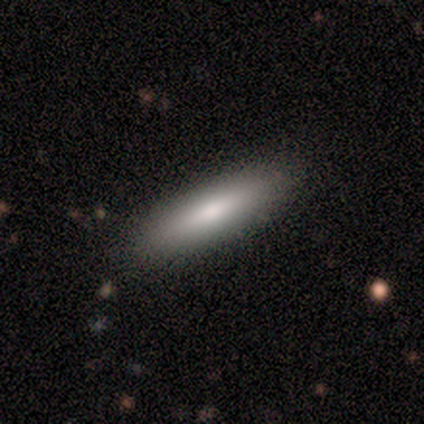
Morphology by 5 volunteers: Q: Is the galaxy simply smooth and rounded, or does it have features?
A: smooth — 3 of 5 (60%).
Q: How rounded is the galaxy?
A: cigar-shaped — 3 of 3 (100%).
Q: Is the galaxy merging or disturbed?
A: none — 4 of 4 (100%).